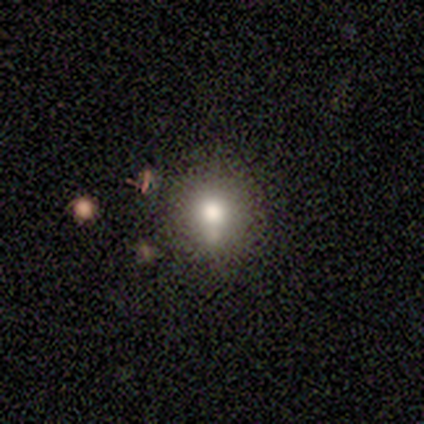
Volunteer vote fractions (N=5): Volunteers were most divided on "smooth or featured": smooth: 80%, featured or disk: 20%, star or artifact: 0%. More confident: how rounded — round (100%); merging — none (100%).